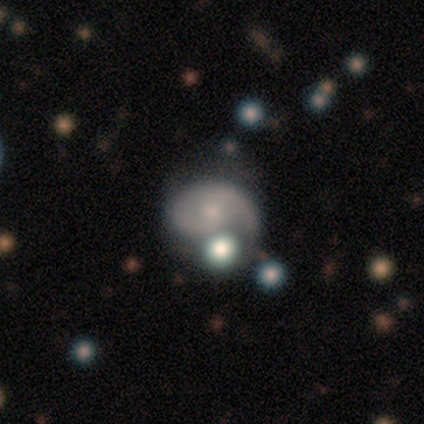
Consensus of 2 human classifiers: smooth_or_featured: featured or disk (p=1.00)
disk_edge_on: no (p=1.00)
bar: weak (p=0.50) [tied with: no p=0.50]
has_spiral_arms: yes (p=1.00)
spiral_winding: loose (p=1.00)
spiral_arm_count: 1 (p=0.50) [tied with: 2 p=0.50]
bulge_size: small (p=1.00)
merging: minor disturbance (p=0.50) [tied with: merger p=0.50]